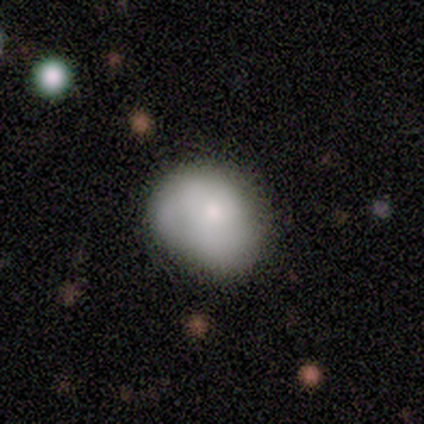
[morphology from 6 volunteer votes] smooth-or-featured: smooth: 83% | featured or disk: 17% | star or artifact: 0%
  how-rounded: in between: 60% | round: 40% | cigar-shaped: 0%
  merging: minor disturbance: 50% | major disturbance: 33% | none: 17% | merger: 0%